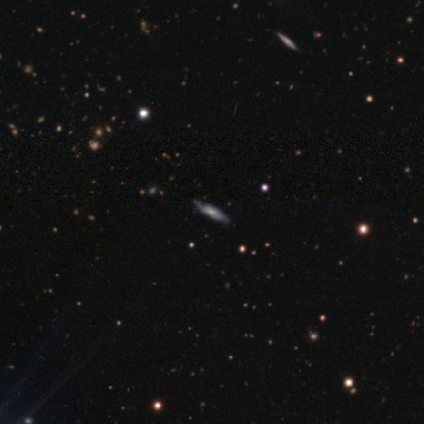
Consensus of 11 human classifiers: This is likely a featured or disk galaxy (73%). It is likely viewed edge-on (62%). Edge-on bulge: likely rounded (60%). Merging: clearly none (91%).